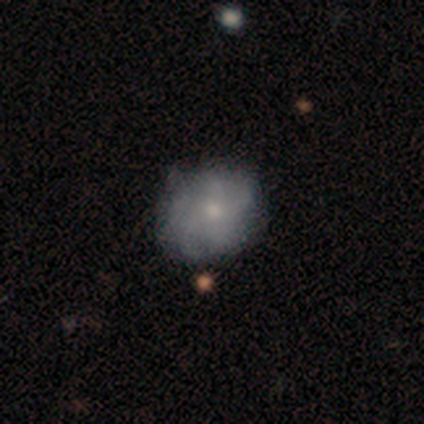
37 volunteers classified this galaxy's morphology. Q: Smooth or featured?
A: smooth (54%); runner-up: featured or disk (30%)
Q: How rounded?
A: round (70%); runner-up: in between (30%)
Q: Merging?
A: none (71%); runner-up: minor disturbance (23%)